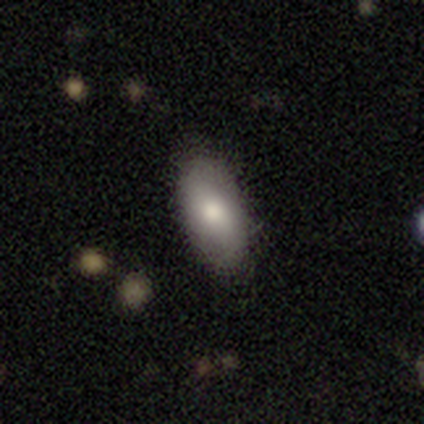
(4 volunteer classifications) Morphology: type=smooth (75%); roundness=in between (100%); merging=none (75%).